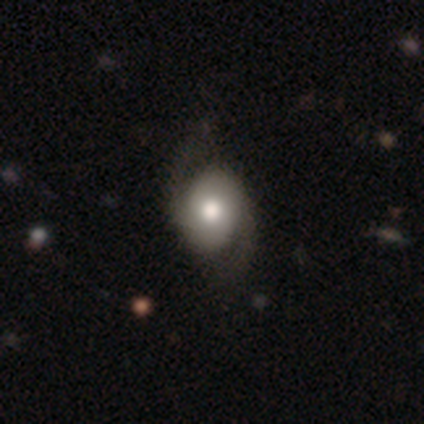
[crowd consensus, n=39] featured or disk 72%, smooth 23%, star or artifact 5%. Down the decision tree: edge-on disk — no (96%); bar — no (85%); spiral arms — yes (89%); spiral arm count — 2 (100%); spiral winding — medium (42%, tied with loose); bulge size — moderate (52%); merging — none (43%).